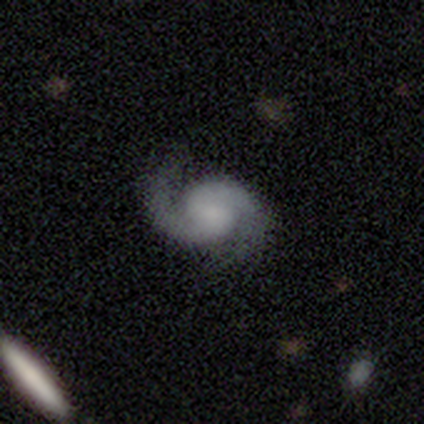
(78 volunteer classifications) A featured or disk galaxy (90%) with no bar (79%), 2 (99%) medium (57%) spiral arms (100%) and no central bulge (51%).

Vote fractions:
- Smooth or featured? featured or disk: 90% / star or artifact: 6% / smooth: 4%
- Edge-on disk? no: 100% / yes: 0%
- Bar? no: 79% / weak: 19% / strong: 3%
- Spiral arms? yes: 100% / no: 0%
- Spiral winding? medium: 57% / loose: 29% / tight: 14%
- Spiral arm count? 2: 99% / can't tell: 1% / 1: 0% / 3: 0% / 4: 0% / more than 4: 0%
- Bulge size? none: 51% / small: 26% / moderate: 11% / large: 10% / dominant: 1%
- Merging? none: 58% / minor disturbance: 10% / major disturbance: 1% / merger: 0%